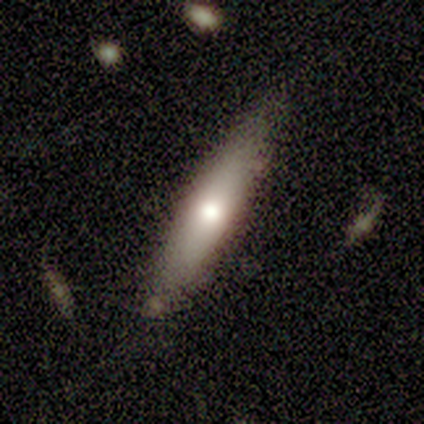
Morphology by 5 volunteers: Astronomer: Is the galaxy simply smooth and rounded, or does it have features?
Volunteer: smooth — 80%.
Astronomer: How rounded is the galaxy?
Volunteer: in between — 50%, tied with cigar-shaped at 50%.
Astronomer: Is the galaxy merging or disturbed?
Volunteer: none — 60% (runner-up: minor disturbance, 40%).